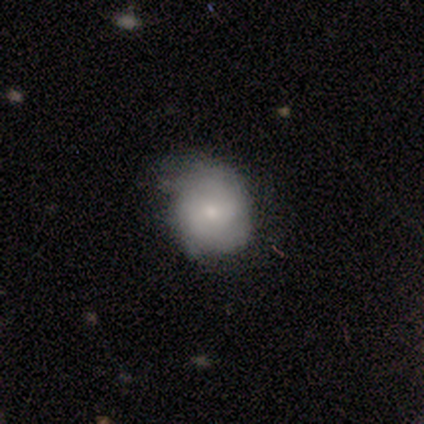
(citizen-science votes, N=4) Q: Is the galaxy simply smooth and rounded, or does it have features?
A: smooth — 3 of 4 (75%).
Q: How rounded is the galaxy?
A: round — 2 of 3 (67%).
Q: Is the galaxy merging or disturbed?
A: none — 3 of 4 (75%).